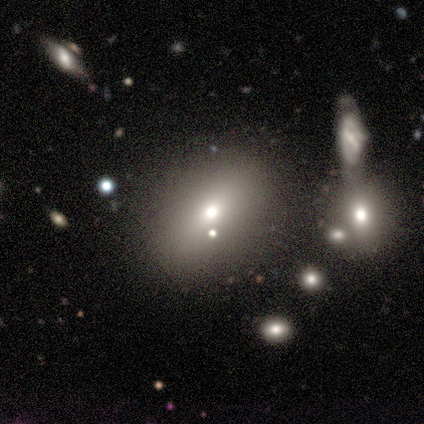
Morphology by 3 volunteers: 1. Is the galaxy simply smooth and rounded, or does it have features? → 67% smooth, 33% featured or disk, 0% star or artifact.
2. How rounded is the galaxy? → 100% in between, 0% round, 0% cigar-shaped.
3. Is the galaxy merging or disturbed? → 33% none (tied), 33% minor disturbance (tied), 33% merger (tied), 0% major disturbance.